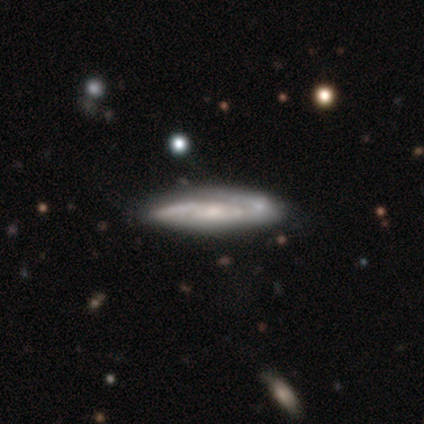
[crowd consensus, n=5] Overall: featured or disk (80%). Edge-on disk: yes (50%, tied with no). Edge-on bulge: none (100%). Merging: minor disturbance (100%).